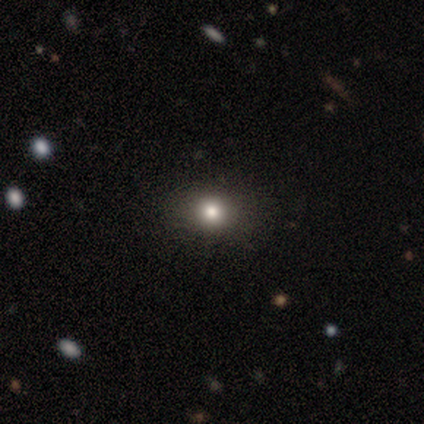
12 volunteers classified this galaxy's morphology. Smooth or featured? smooth (75%)
How rounded? round (56%)
Merging? none (78%)